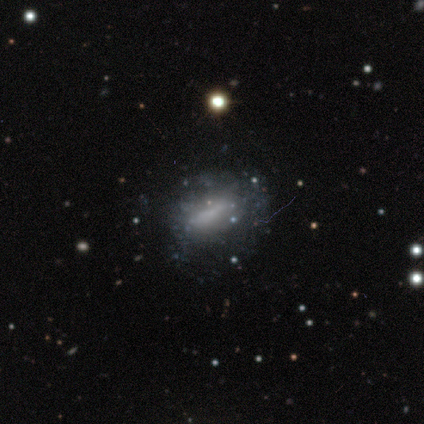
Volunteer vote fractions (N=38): This appears to be a featured or disk galaxy (58%) with no bar (63%), no spiral arms (89%) and no central bulge (58%). Merging: none (48%).